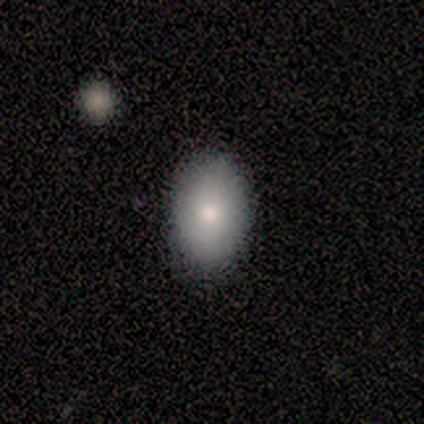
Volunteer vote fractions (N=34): Smooth or featured?
  - smooth: 88% *
  - featured or disk: 9%
  - star or artifact: 3%
How rounded?
  - in between: 93% *
  - round: 7%
  - cigar-shaped: 0%
Merging?
  - none: 85% *
  - minor disturbance: 15%
  - major disturbance: 0%
  - merger: 0%